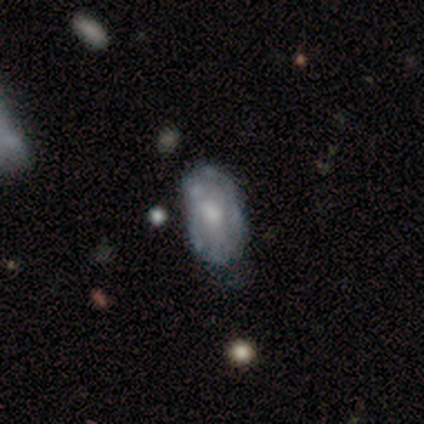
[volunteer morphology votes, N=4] Smooth or featured? 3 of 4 (75%) said featured or disk. Edge-on disk? 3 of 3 (100%) said no. Bar? 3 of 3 (100%) said no. Spiral arms? 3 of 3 (100%) said yes. Spiral winding? 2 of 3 (67%) said tight. Spiral arm count? 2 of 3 (67%) said can't tell. Bulge size? 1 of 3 (33%, tied with small and none) said moderate. Merging? 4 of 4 (100%) said none.